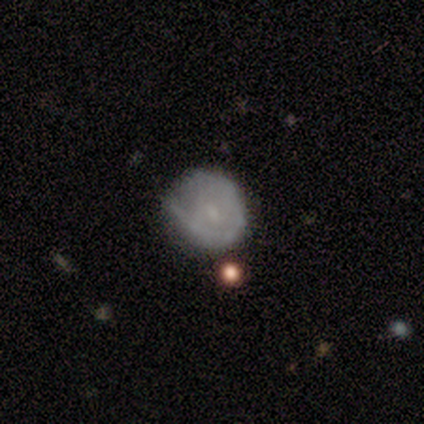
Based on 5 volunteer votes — Volunteers were most divided on "smooth or featured" (2-way tie): smooth: 40%, star or artifact: 40%, featured or disk: 20%; "how rounded" (2-way tie): round: 50%, in between: 50%, cigar-shaped: 0%. More confident: merging — minor disturbance (67%).